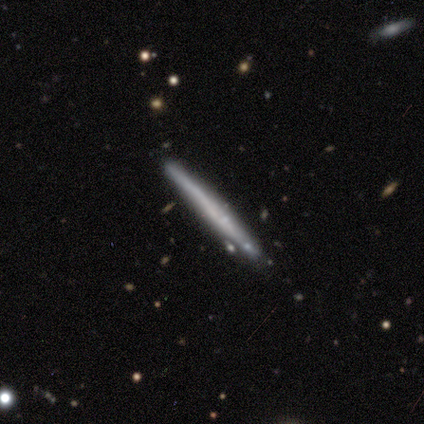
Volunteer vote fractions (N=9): Smooth or featured? 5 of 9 (56%) said smooth. How rounded? 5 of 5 (100%) said cigar-shaped. Merging? 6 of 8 (75%) said none.